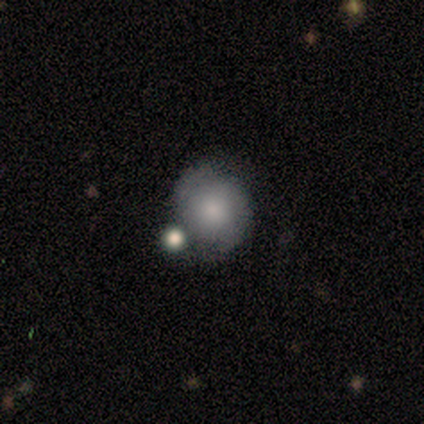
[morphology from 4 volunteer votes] Overall: smooth (75%). How rounded: round (100%). Merging: none (50%, tied with minor disturbance).